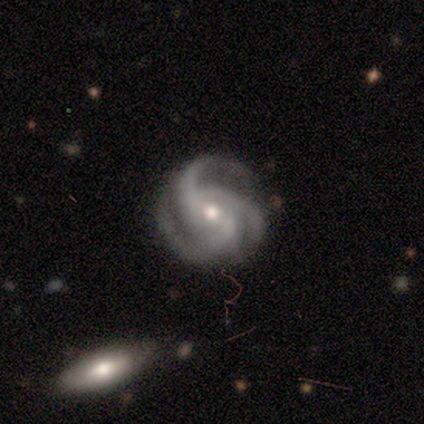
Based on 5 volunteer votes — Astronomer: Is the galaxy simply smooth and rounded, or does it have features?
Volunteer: featured or disk — 100%.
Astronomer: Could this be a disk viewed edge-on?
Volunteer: no — 100%.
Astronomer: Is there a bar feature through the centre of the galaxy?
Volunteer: weak — 40%, tied with no at 40%.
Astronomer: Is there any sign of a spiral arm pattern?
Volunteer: yes — 100%.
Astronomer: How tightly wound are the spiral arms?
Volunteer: tight — 40%, tied with medium at 40%.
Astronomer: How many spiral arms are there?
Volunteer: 3 — 100%.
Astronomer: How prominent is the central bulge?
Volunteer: small — 60% (runner-up: moderate, 40%).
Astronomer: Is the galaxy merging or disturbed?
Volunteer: none — 80%.